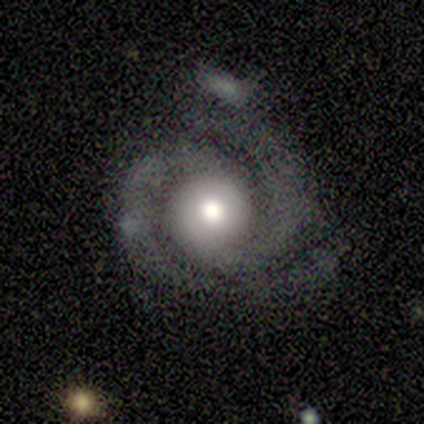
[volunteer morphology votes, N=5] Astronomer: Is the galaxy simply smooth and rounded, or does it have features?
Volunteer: featured or disk — 100%.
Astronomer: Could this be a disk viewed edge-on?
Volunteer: no — 100%.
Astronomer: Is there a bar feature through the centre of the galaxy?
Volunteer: no — 100%.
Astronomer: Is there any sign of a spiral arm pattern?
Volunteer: yes — 100%.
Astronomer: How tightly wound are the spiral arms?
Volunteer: tight — 80%.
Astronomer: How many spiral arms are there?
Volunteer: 2 — 100%.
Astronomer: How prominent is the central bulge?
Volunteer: large — 40%, tied with moderate at 40%.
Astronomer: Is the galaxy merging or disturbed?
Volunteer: none — 80%.